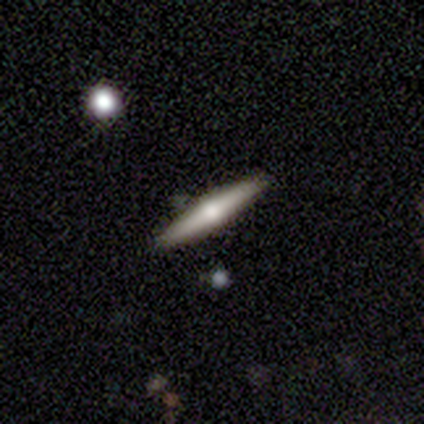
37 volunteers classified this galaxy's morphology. smooth-or-featured: featured or disk: 54% | smooth: 35% | star or artifact: 11%
  disk-edge-on: yes: 100% | no: 0%
    edge-on-bulge: rounded: 95% | none: 5% | boxy: 0%
  merging: none: 94% | minor disturbance: 6% | major disturbance: 0% | merger: 0%